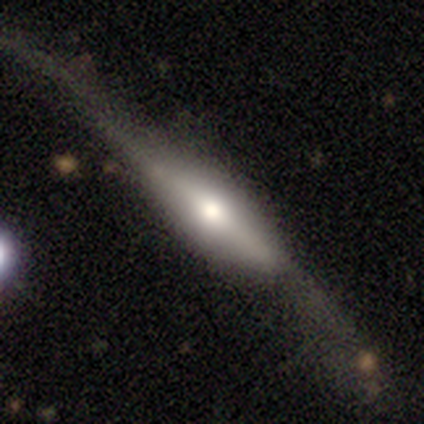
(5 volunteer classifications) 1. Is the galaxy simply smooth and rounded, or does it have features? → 40% smooth (tied), 40% featured or disk (tied), 20% star or artifact.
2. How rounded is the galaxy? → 100% cigar-shaped, 0% round, 0% in between.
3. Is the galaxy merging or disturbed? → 50% major disturbance, 25% none, 25% minor disturbance, 0% merger.